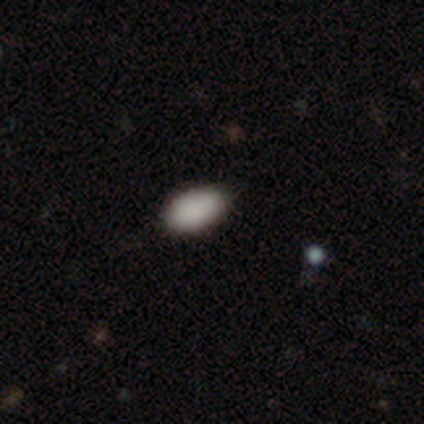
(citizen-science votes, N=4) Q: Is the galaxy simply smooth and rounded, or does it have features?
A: smooth — 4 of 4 (100%).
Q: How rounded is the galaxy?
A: in between — 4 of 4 (100%).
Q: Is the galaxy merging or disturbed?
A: none — 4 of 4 (100%).